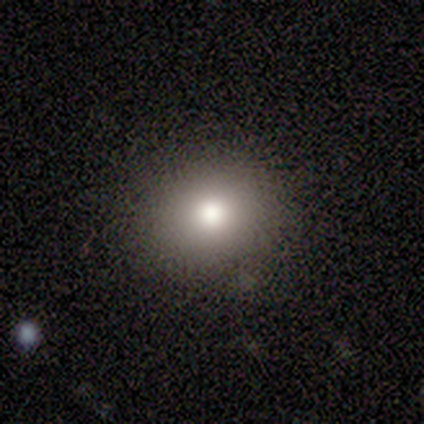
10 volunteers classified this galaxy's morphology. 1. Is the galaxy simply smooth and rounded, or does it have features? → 80% smooth, 10% featured or disk, 10% star or artifact.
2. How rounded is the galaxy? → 88% round, 12% in between, 0% cigar-shaped.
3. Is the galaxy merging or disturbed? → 89% none, 11% major disturbance, 0% minor disturbance, 0% merger.